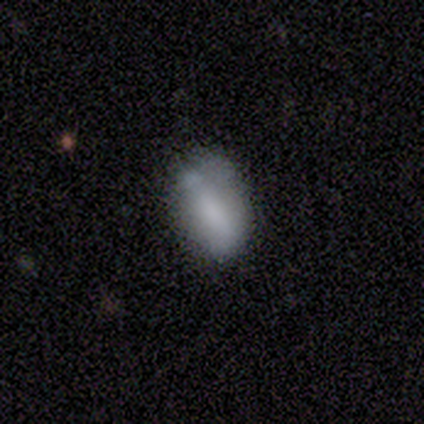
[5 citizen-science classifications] smooth_or_featured: smooth (p=0.80) [alt: star or artifact p=0.20]
how_rounded: in between (p=0.50) [alt: round p=0.25]
merging: minor disturbance (p=0.50) [alt: none p=0.25]